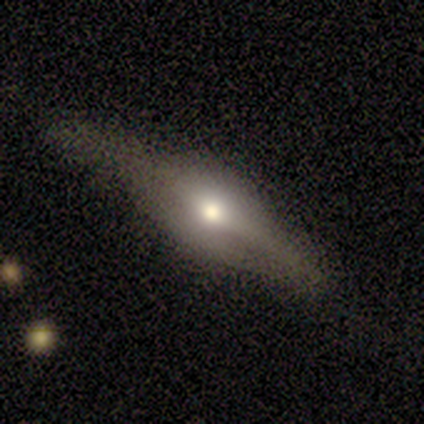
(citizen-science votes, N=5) Q: Smooth or featured?
A: smooth (60%); runner-up: featured or disk (40%)
Q: How rounded?
A: cigar-shaped (67%); runner-up: in between (33%)
Q: Merging?
A: none (100%)